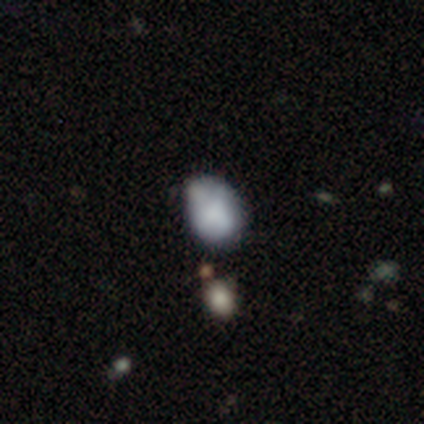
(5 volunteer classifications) Smooth or featured? 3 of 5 (60%) said featured or disk. Edge-on disk? 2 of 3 (67%) said no. Bar? 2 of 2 (100%) said no. Spiral arms? 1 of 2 (50%, tied with no) said yes. Spiral winding? 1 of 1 (100%) said medium. Spiral arm count? 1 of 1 (100%) said can't tell. Bulge size? 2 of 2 (100%) said none. Merging? 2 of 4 (50%) said minor disturbance.